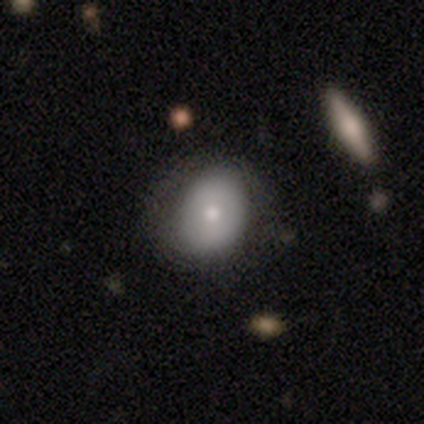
Smooth or featured: smooth — 100%
How rounded: in between — 60% (round — 40%)
Merging: none — 100%